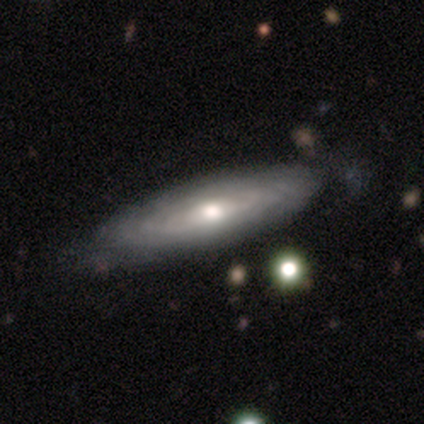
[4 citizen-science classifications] Volunteers were most divided on "bar": no: 67%, weak: 33%, strong: 0%. More confident: edge-on disk — no (100%); spiral winding — tight (100%); spiral arm count — can't tell (100%); merging — minor disturbance (100%); smooth or featured — featured or disk (75%); spiral arms — yes (67%); bulge size — moderate (67%).